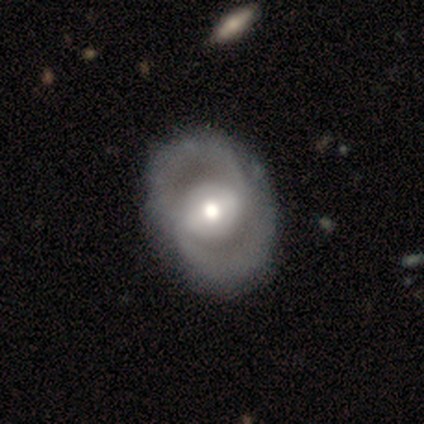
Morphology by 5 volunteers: smooth-or-featured: featured or disk: 60% | smooth: 40% | star or artifact: 0%
  disk-edge-on: no: 100% | yes: 0%
    bar: weak: 100% | strong: 0% | no: 0%
    has-spiral-arms: no: 100% | yes: 0%
    bulge-size: moderate: 100% | dominant: 0% | large: 0% | small: 0% | none: 0%
  merging: none: 100% | minor disturbance: 0% | major disturbance: 0% | merger: 0%